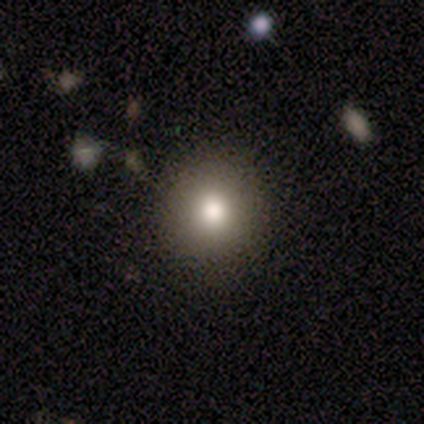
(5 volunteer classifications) Smooth or featured?
  - smooth: 60% *
  - star or artifact: 40%
  - featured or disk: 0%
How rounded?
  - round: 67% *
  - in between: 33%
  - cigar-shaped: 0%
Merging?
  - none: 67% *
  - minor disturbance: 33%
  - major disturbance: 0%
  - merger: 0%